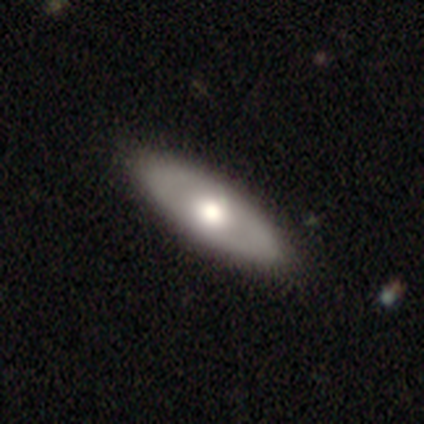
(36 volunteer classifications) A featured or disk galaxy (58%) with no bar (92%), no spiral arms (100%) and a moderate central bulge (54%). Merging: none (94%).